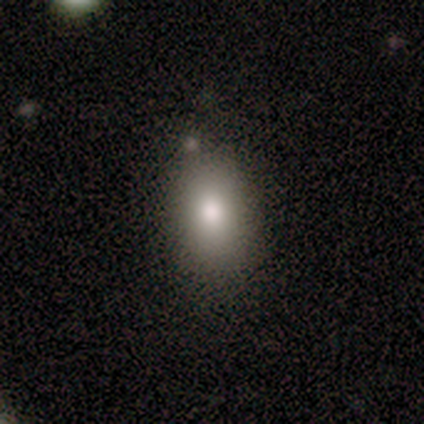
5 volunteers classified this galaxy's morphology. smooth 100%, featured or disk 0%, star or artifact 0%. Down the decision tree: how rounded — in between (80%); merging — none (100%).